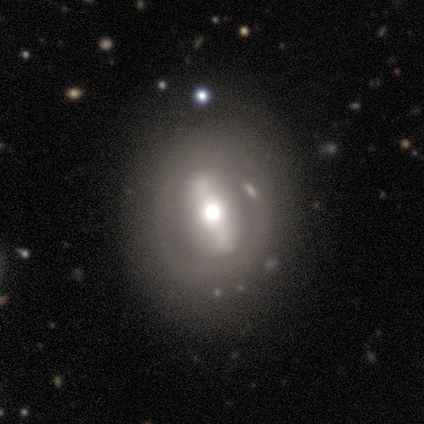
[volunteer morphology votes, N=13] Volunteers were most divided on "bar": strong: 57%, no: 29%, weak: 14%. More confident: merging — none (92%); spiral arms — no (86%); bulge size — moderate (86%); edge-on disk — no (78%); smooth or featured — featured or disk (69%).